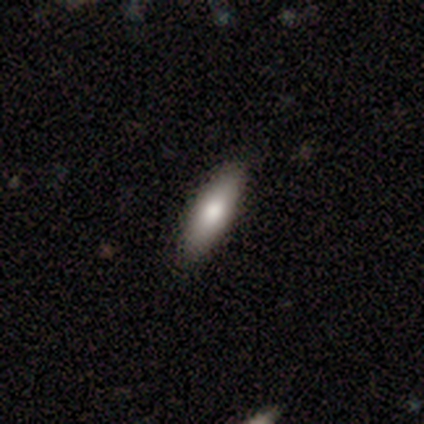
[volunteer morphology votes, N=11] Overall: smooth (64%; featured or disk 36%). How rounded: in between (71%). Merging: none (82%).